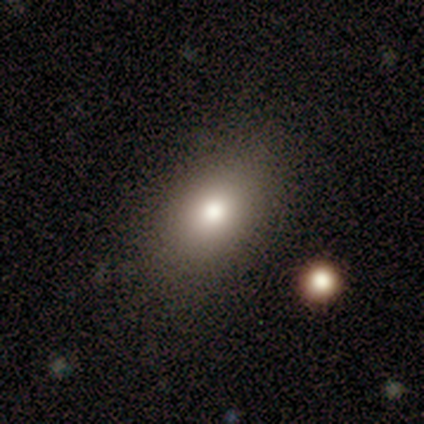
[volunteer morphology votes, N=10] This appears to be a smooth galaxy with no disk features (80%) that is in between round and cigar-shaped (100%). Merging: none (80%).